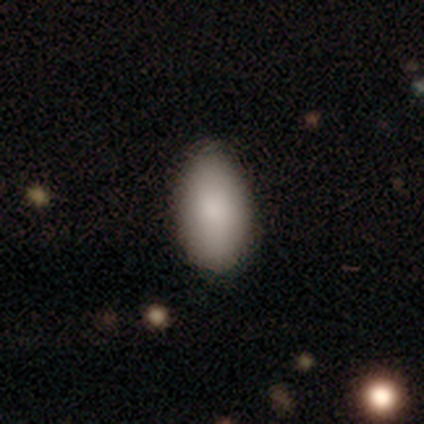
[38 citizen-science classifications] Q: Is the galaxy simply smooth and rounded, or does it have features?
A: smooth — 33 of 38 (87%).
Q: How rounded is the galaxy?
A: in between — 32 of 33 (97%).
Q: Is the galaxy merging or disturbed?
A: none — 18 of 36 (50%).